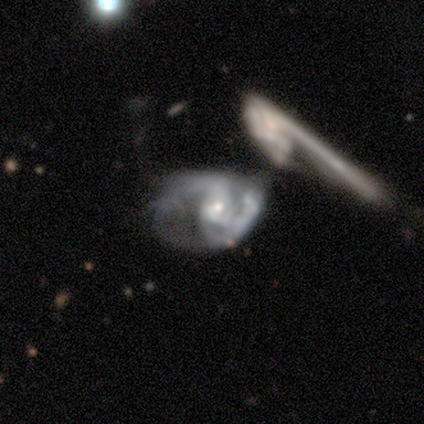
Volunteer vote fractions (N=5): Smooth or featured? 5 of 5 (100%) said featured or disk. Edge-on disk? 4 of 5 (80%) said no. Bar? 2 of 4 (50%) said weak. Spiral arms? 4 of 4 (100%) said yes. Spiral winding? 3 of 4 (75%) said medium. Spiral arm count? 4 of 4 (100%) said 2. Bulge size? 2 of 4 (50%, tied with small) said moderate. Merging? 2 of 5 (40%, tied with merger) said major disturbance.